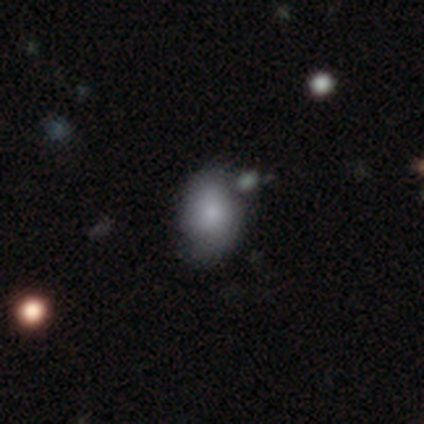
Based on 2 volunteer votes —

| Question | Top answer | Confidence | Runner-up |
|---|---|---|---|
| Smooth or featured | smooth | 50% | tied: star or artifact (50%) |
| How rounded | in between | 100% | — |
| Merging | minor disturbance | 100% | — |